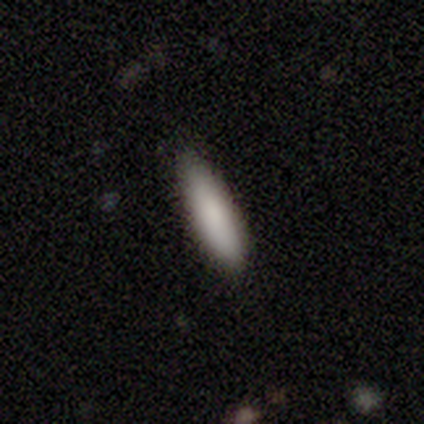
Smooth or featured?
  - smooth: 80% *
  - featured or disk: 20%
  - star or artifact: 0%
How rounded?
  - cigar-shaped: 75% *
  - in between: 25%
  - round: 0%
Merging?
  - none: 80% *
  - minor disturbance: 20%
  - major disturbance: 0%
  - merger: 0%